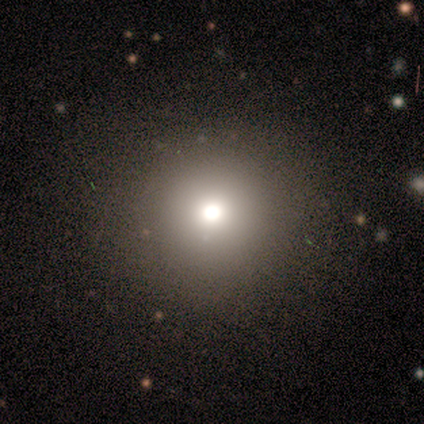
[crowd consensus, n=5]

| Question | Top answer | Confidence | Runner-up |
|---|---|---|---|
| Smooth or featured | star or artifact | 80% | smooth (20%) |